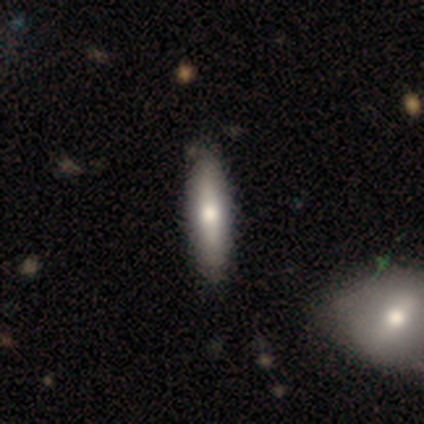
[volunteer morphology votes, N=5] Volunteers were most divided on "smooth or featured" (2-way tie): smooth: 40%, featured or disk: 40%, star or artifact: 20%. More confident: how rounded — cigar-shaped (100%); merging — none (75%).